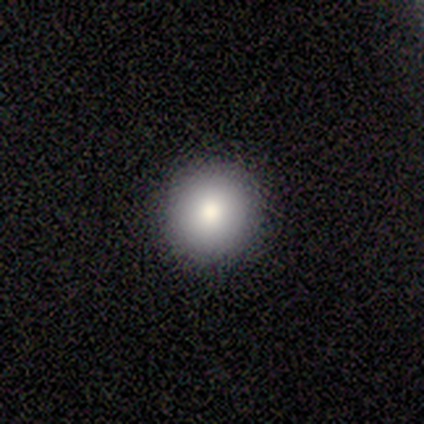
A smooth galaxy with no disk features (83%) that is round (80%). Merging: none (100%).